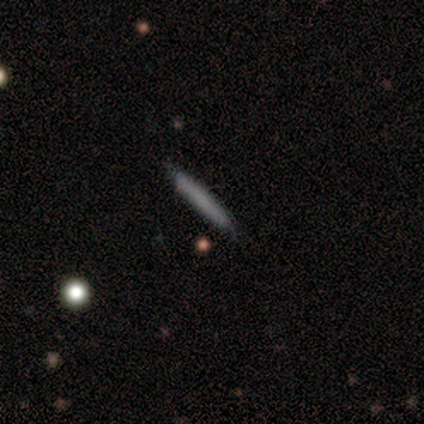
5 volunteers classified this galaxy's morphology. smooth 100%, featured or disk 0%, star or artifact 0%. Down the decision tree: how rounded — cigar-shaped (80%); merging — none (100%).